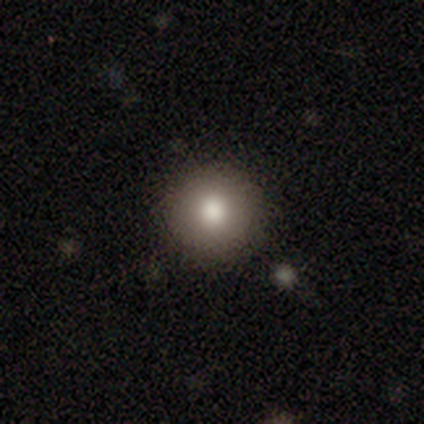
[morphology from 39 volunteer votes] A smooth galaxy with no disk features (74%) that is round (93%). Merging: none (85%).